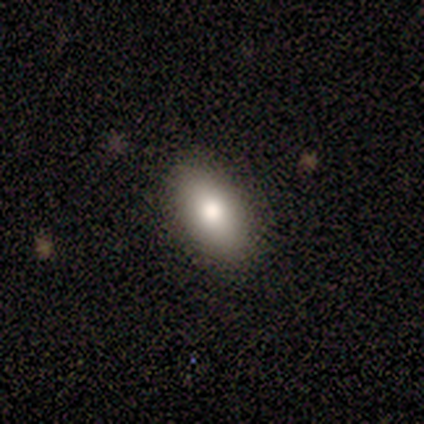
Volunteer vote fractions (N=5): Volunteers were most divided on "merging": none: 75%, minor disturbance: 25%, major disturbance: 0%, merger: 0%. More confident: how rounded — in between (100%); smooth or featured — smooth (80%).